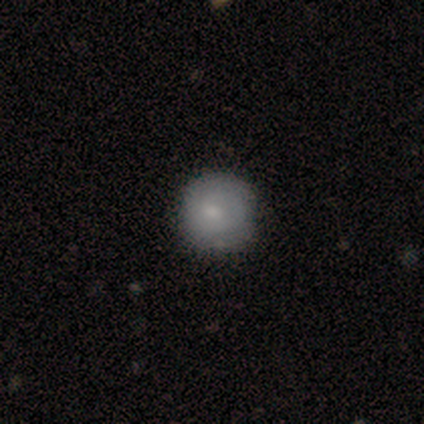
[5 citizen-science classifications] Smooth or featured? 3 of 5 (60%) said smooth. How rounded? 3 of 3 (100%) said round. Merging? 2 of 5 (40%, tied with minor disturbance) said none.